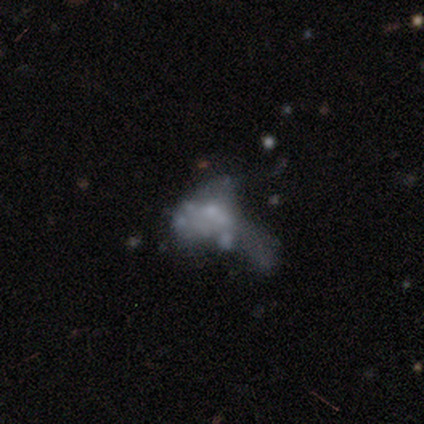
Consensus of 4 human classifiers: Smooth or featured?
  - featured or disk: 50% *
  - smooth: 25%
  - star or artifact: 25%
Edge-on disk?
  - no: 100% *
  - yes: 0%
Bar?
  - weak: 50% * (tied)
  - no: 50% * (tied)
  - strong: 0%
Spiral arms?
  - no: 100% *
  - yes: 0%
Bulge size?
  - small: 50% * (tied)
  - none: 50% * (tied)
  - dominant: 0%
  - large: 0%
  - moderate: 0%
Merging?
  - major disturbance: 67% *
  - merger: 33%
  - none: 0%
  - minor disturbance: 0%